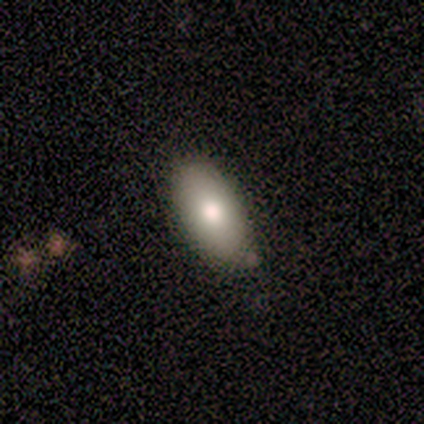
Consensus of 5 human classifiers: This appears to be a smooth galaxy with no disk features (60%) that is in between round and cigar-shaped (100%). Merging: none (100%).